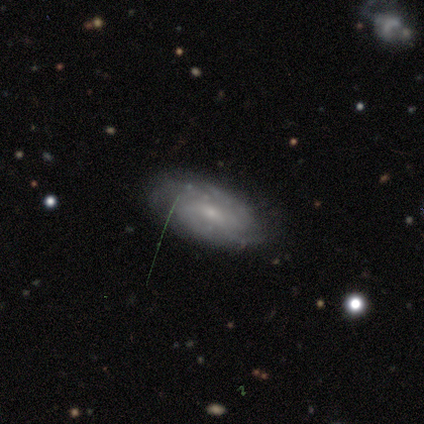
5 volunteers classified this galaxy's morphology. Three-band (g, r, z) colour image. It shows a smooth galaxy with no disk features (40%, tied with featured or disk) that is in between round and cigar-shaped (100%). Merging: none (75%).